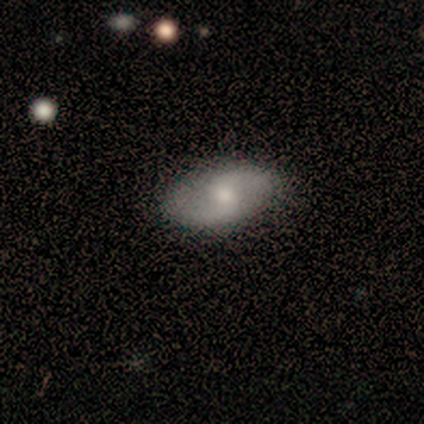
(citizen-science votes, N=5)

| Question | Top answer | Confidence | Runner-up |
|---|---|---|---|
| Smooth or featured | featured or disk | 80% | smooth (20%) |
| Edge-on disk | no | 100% | — |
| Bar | weak | 75% | no (25%) |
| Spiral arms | yes | 100% | — |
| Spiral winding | medium | 50% | tied: loose (50%) |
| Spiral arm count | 2 | 100% | — |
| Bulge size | moderate | 50% | small (25%) |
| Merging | none | 80% | minor disturbance (20%) |